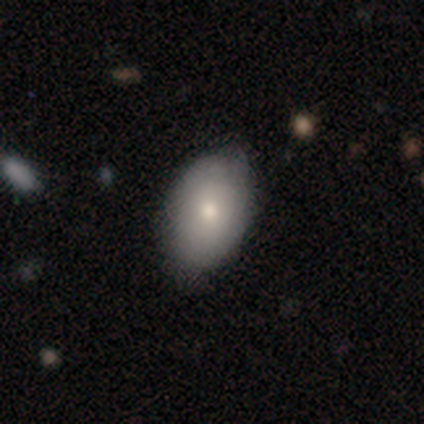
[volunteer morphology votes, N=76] smooth-or-featured: smooth: 84% | featured or disk: 12% | star or artifact: 4%
  how-rounded: in between: 84% | round: 14% | cigar-shaped: 2%
  merging: none: 52% | minor disturbance: 7% | merger: 4% | major disturbance: 0%